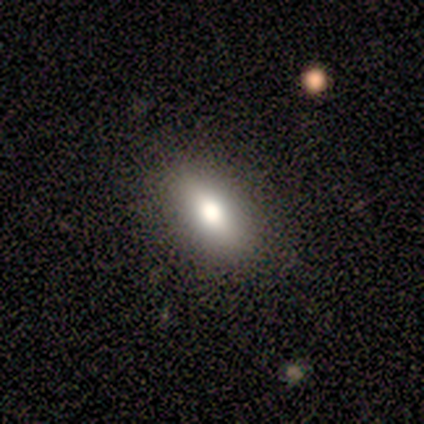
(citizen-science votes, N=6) A smooth galaxy with no disk features (100%) that is in between round and cigar-shaped (83%).

Vote fractions:
- Smooth or featured? smooth: 100% / featured or disk: 0% / star or artifact: 0%
- How rounded? in between: 83% / round: 17% / cigar-shaped: 0%
- Merging? none: 83% / minor disturbance: 17% / major disturbance: 0% / merger: 0%